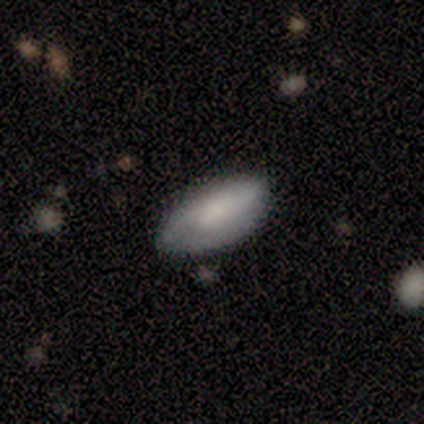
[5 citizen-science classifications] Overall: smooth (60%; featured or disk 40%). How rounded: in between (100%). Merging: none (40%, tied with minor disturbance).